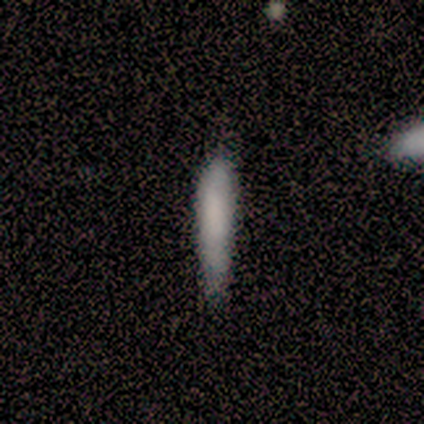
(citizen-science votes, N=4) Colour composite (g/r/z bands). It shows a smooth galaxy with no disk features (75%) that is cigar-shaped (100%). Merging: none (100%).